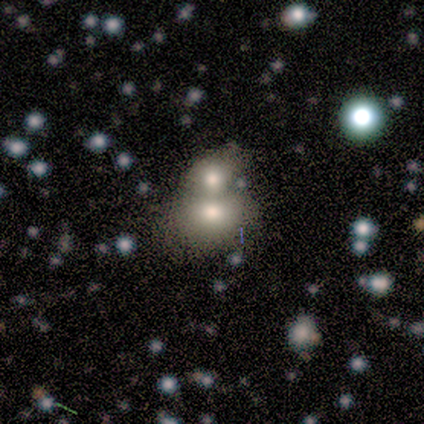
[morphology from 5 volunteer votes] This is marginally a smooth galaxy (40%, tied with star or artifact). How rounded: clearly round (100%). Merging: likely merger (67%).